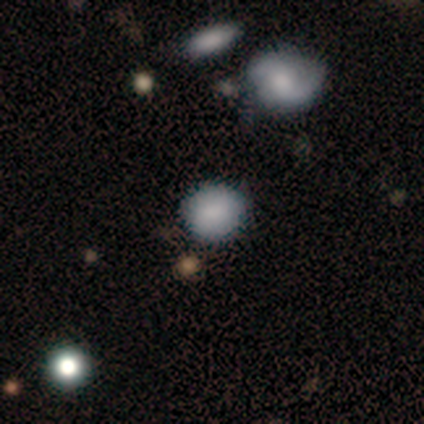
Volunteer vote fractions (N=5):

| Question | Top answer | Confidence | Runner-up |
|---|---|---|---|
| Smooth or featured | smooth | 100% | — |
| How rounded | round | 80% | in between (20%) |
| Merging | none | 80% | minor disturbance (20%) |